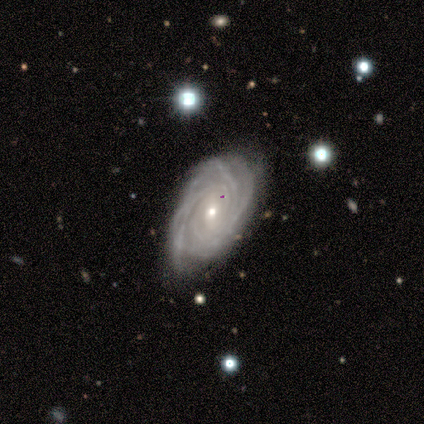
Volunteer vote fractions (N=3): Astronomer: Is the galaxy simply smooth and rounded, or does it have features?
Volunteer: featured or disk — 100%.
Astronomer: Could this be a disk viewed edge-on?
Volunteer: no — 100%.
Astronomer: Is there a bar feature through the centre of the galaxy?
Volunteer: weak — 67%.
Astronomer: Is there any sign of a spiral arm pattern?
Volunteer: yes — 100%.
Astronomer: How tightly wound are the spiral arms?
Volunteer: tight — 67%.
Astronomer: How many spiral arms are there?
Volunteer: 4 — 33%, tied with more than 4 and can't tell at 33%.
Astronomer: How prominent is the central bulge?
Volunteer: small — 100%.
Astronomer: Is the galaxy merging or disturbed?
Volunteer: none — 100%.